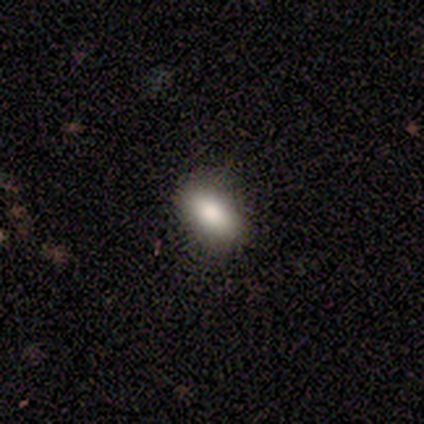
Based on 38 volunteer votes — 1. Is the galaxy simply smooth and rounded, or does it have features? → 82% smooth, 11% star or artifact, 8% featured or disk.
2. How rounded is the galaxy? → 87% in between, 6% round, 6% cigar-shaped.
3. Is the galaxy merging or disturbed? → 94% none, 3% minor disturbance, 3% major disturbance, 0% merger.